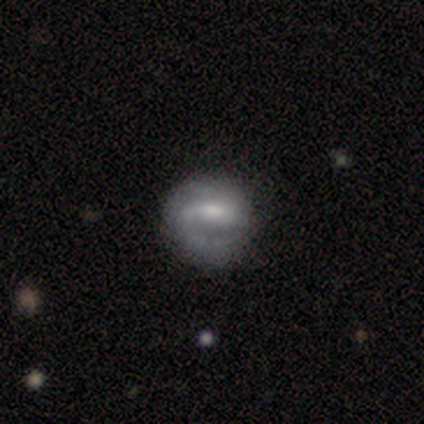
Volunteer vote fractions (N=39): A featured or disk galaxy (62%) with a strong bar (42%, tied with weak), 2 (50%) medium (44%) spiral arms (67%) and a moderate central bulge (50%).

Vote fractions:
- Smooth or featured? featured or disk: 62% / smooth: 31% / star or artifact: 8%
- Edge-on disk? no: 100% / yes: 0%
- Bar? strong: 42% (tied) / weak: 42% (tied) / no: 17%
- Spiral arms? yes: 67% / no: 33%
- Spiral winding? medium: 44% / tight: 38% / loose: 19%
- Spiral arm count? 2: 50% / 1: 38% / can't tell: 12% / 3: 0% / 4: 0% / more than 4: 0%
- Bulge size? moderate: 50% / small: 29% / none: 17% / large: 4% / dominant: 0%
- Merging? none: 56% / minor disturbance: 31% / major disturbance: 0% / merger: 0%